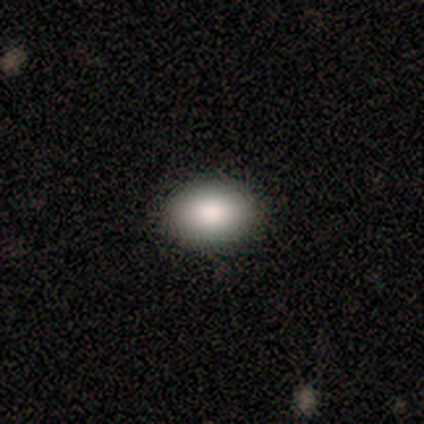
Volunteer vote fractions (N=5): smooth 80%, star or artifact 20%, featured or disk 0%. Down the decision tree: how rounded — in between (100%); merging — none (100%).